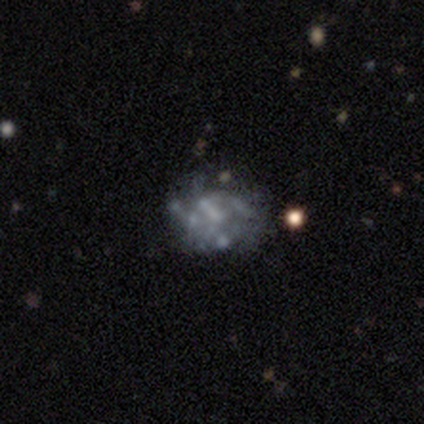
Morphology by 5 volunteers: Smooth or featured: featured or disk — 80% (smooth — 20%)
Edge-on disk: no — 100%
Bar: no — 100%
Spiral arms: yes — 50% (tied with no — 50%)
Spiral winding: tight — 50% (tied with medium — 50%)
Spiral arm count: 2 — 50% (tied with can't tell — 50%)
Bulge size: none — 75% (small — 25%)
Merging: none — 60% (minor disturbance — 20%)